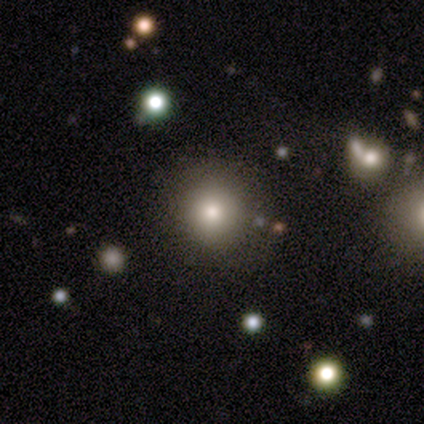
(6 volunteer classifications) Morphology: type=smooth (83%); roundness=round (80%); merging=none (83%).